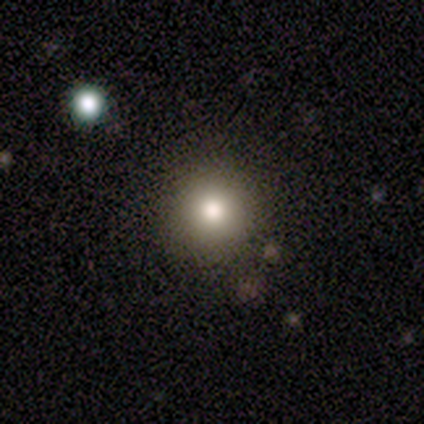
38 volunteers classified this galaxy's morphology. smooth-or-featured: smooth: 71% | featured or disk: 16% | star or artifact: 13%
  how-rounded: round: 100% | in between: 0% | cigar-shaped: 0%
  merging: none: 85% | minor disturbance: 6% | merger: 6% | major disturbance: 3%